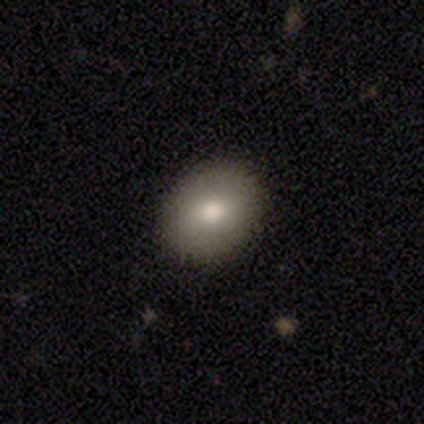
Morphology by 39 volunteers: Smooth or featured?
  - smooth: 95% *
  - star or artifact: 5%
  - featured or disk: 0%
How rounded?
  - round: 65% *
  - in between: 35%
  - cigar-shaped: 0%
Merging?
  - none: 89% *
  - minor disturbance: 11%
  - major disturbance: 0%
  - merger: 0%